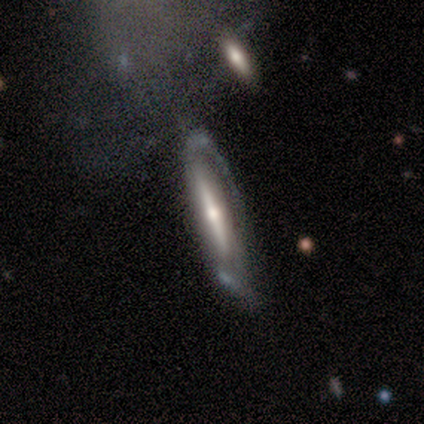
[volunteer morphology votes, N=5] smooth_or_featured: featured or disk (p=0.80) [alt: smooth p=0.20]
disk_edge_on: yes (p=0.75) [alt: no p=0.25]
edge_on_bulge: rounded (p=1.00)
merging: minor disturbance (p=0.60) [alt: none p=0.40]